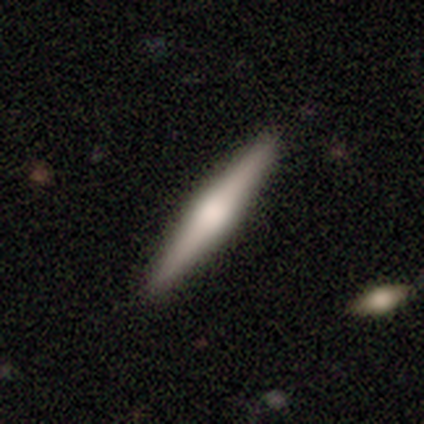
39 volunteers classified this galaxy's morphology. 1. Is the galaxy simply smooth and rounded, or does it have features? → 62% featured or disk, 28% smooth, 10% star or artifact.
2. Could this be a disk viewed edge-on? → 100% yes, 0% no.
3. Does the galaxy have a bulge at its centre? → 71% rounded, 25% boxy, 4% none.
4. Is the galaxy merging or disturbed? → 91% none, 9% minor disturbance, 0% major disturbance, 0% merger.